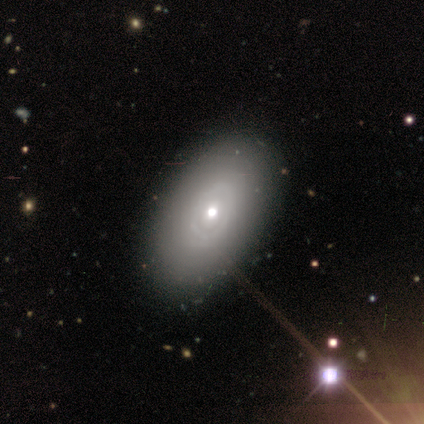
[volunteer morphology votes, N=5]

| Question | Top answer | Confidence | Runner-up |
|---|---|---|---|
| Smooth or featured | smooth | 60% | featured or disk (40%) |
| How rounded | in between | 100% | — |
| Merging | none | 100% | — |